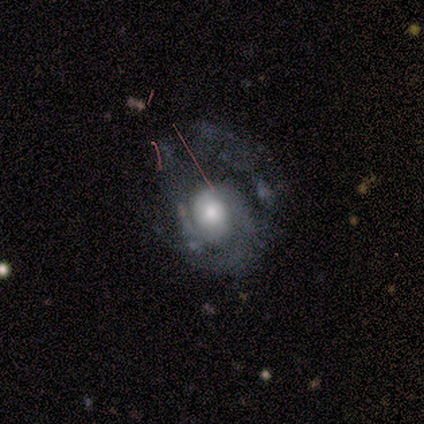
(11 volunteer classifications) Smooth or featured?
  - featured or disk: 82% *
  - smooth: 9%
  - star or artifact: 9%
Edge-on disk?
  - no: 100% *
  - yes: 0%
Bar?
  - weak: 56% *
  - no: 44%
  - strong: 0%
Spiral arms?
  - yes: 78% *
  - no: 22%
Spiral winding?
  - tight: 43% * (tied)
  - medium: 43% * (tied)
  - loose: 14%
Spiral arm count?
  - 2: 71% *
  - 1: 14%
  - can't tell: 14%
  - 3: 0%
  - 4: 0%
  - more than 4: 0%
Bulge size?
  - large: 56% *
  - moderate: 33%
  - small: 11%
  - dominant: 0%
  - none: 0%
Merging?
  - major disturbance: 50% *
  - none: 40%
  - minor disturbance: 10%
  - merger: 0%